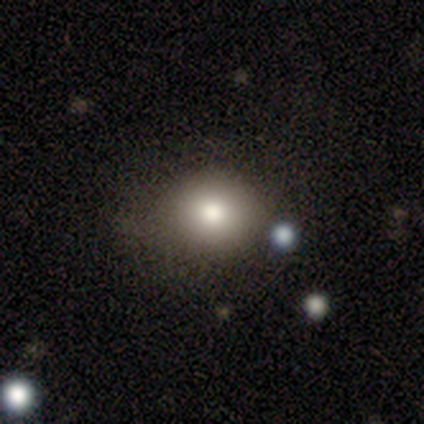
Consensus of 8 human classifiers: smooth 75%, featured or disk 25%, star or artifact 0%. Down the decision tree: how rounded — round (83%); merging — none (75%).